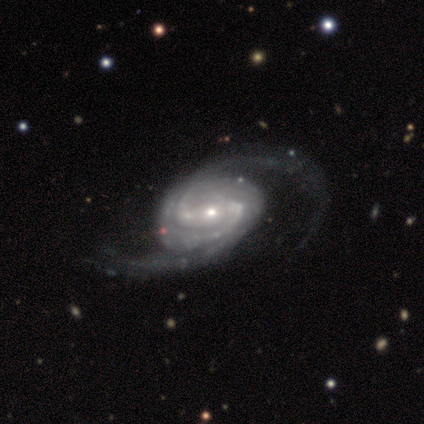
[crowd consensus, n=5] A featured or disk galaxy (100%) with a weak bar (40%, tied with no), 2 (100%) medium (60%) spiral arms (100%) and a small central bulge (80%). Merging: none (100%).